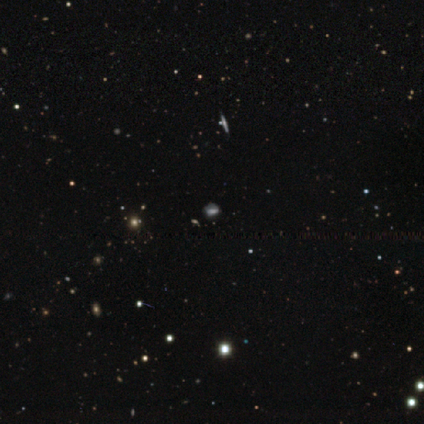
Overall: star or artifact (51%; smooth 31%).